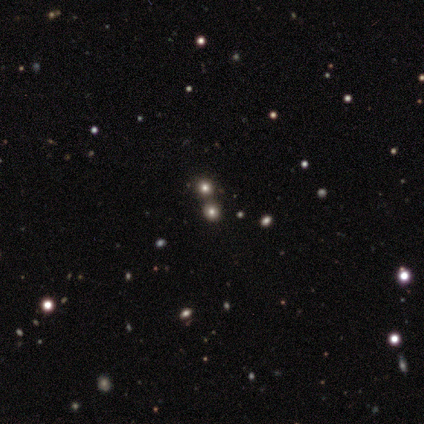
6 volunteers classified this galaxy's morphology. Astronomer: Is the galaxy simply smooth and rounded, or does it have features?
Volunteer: star or artifact — 67%.